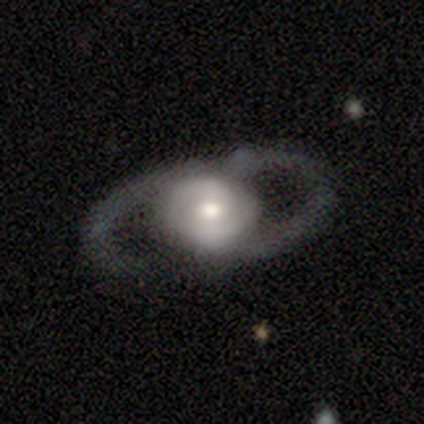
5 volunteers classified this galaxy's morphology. A featured or disk galaxy (100%) with no bar (50%), 2 (100%) medium (67%) spiral arms (75%) and a moderate central bulge (75%).

Vote fractions:
- Smooth or featured? featured or disk: 100% / smooth: 0% / star or artifact: 0%
- Edge-on disk? no: 80% / yes: 20%
- Bar? no: 50% / strong: 25% / weak: 25%
- Spiral arms? yes: 75% / no: 25%
- Spiral winding? medium: 67% / loose: 33% / tight: 0%
- Spiral arm count? 2: 100% / 1: 0% / 3: 0% / 4: 0% / more than 4: 0% / can't tell: 0%
- Bulge size? moderate: 75% / small: 25% / dominant: 0% / large: 0% / none: 0%
- Merging? none: 60% / minor disturbance: 20% / merger: 20% / major disturbance: 0%